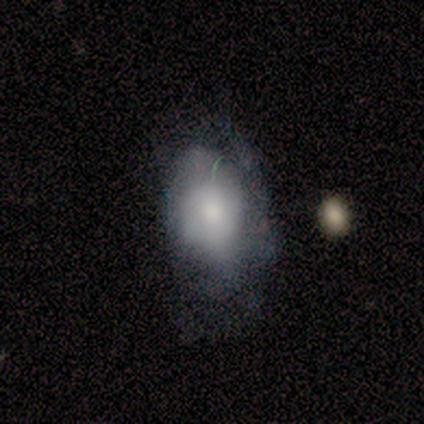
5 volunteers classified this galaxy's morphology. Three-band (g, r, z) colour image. It shows a smooth galaxy with no disk features (60%) that is in between round and cigar-shaped (100%). Merging: none (60%).